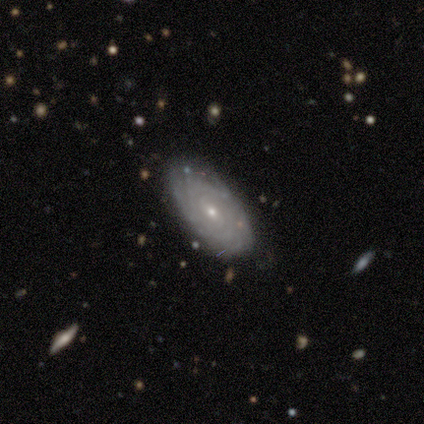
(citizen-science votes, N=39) This is likely a featured or disk galaxy (69%). It is clearly not viewed edge-on (96%). Bar: possibly weak (58%). Spiral arm pattern: clearly yes (92%). Spiral arm count: possibly can't tell (54%). Spiral winding: likely tight (71%). Central bulge: clearly small (88%). Merging: clearly none (86%).